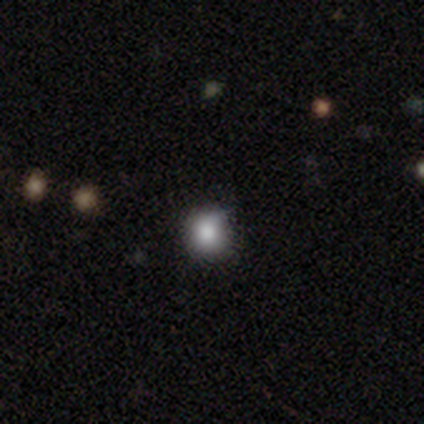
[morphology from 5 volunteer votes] smooth 60%, featured or disk 20%, star or artifact 20%. Down the decision tree: how rounded — round (100%); merging — none (100%).